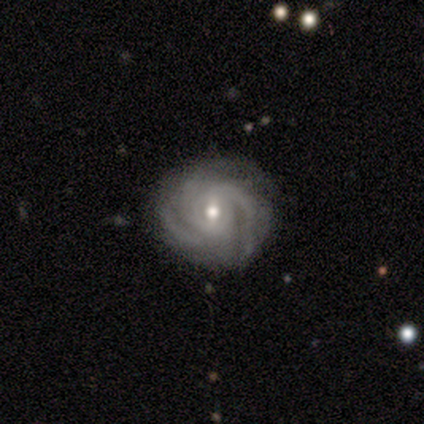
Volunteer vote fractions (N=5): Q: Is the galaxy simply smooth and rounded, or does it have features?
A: featured or disk — 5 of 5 (100%).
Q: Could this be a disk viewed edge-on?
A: no — 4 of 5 (80%).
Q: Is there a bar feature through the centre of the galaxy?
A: no — 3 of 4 (75%).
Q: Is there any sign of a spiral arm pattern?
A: yes — 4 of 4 (100%).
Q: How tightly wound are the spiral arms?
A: tight — 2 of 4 (50%, tied with medium).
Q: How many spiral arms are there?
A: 3 — 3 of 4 (75%).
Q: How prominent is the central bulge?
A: small — 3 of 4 (75%).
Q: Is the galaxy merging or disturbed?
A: none — 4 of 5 (80%).